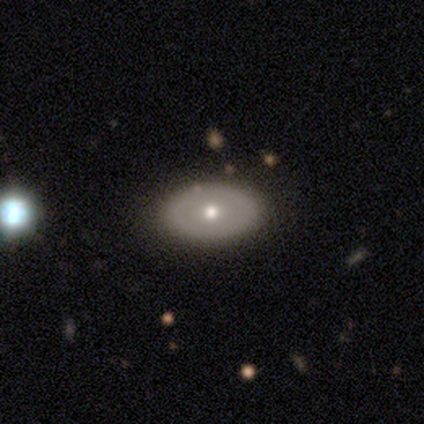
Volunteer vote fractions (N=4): Morphology: type=smooth (75%); roundness=in between (67%); merging=none (100%).